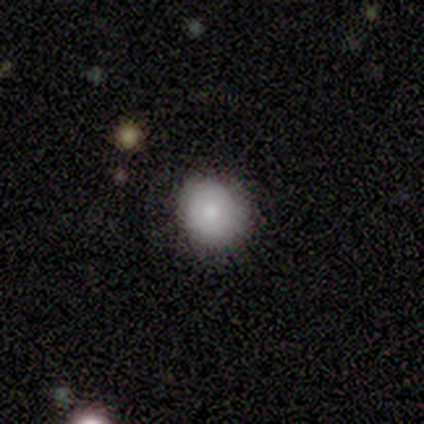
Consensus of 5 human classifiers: Smooth or featured?
  - smooth: 60% *
  - featured or disk: 20%
  - star or artifact: 20%
How rounded?
  - round: 100% *
  - in between: 0%
  - cigar-shaped: 0%
Merging?
  - none: 100% *
  - minor disturbance: 0%
  - major disturbance: 0%
  - merger: 0%